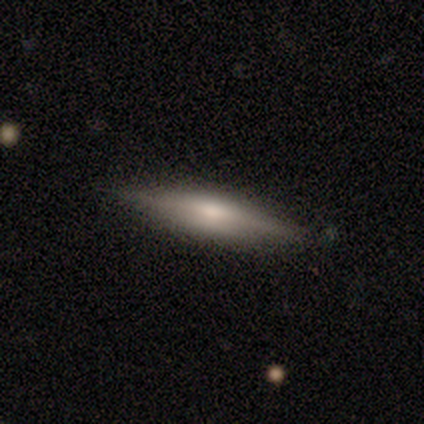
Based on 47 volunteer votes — Q: Smooth or featured?
A: smooth (51%); runner-up: featured or disk (47%)
Q: How rounded?
A: cigar-shaped (83%); runner-up: in between (17%)
Q: Merging?
A: none (87%); runner-up: minor disturbance (11%)